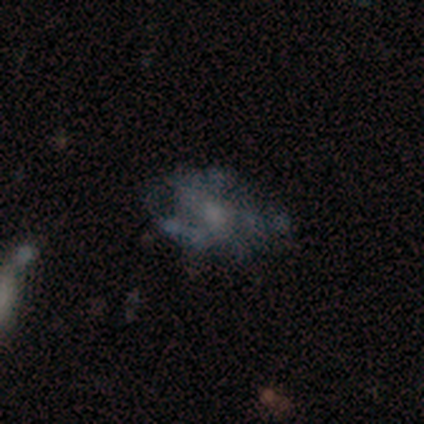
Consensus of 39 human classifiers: This appears to be a featured or disk galaxy (69%) with no bar (96%), no spiral arms (84%) and no central bulge (48%). Merging: none (36%).